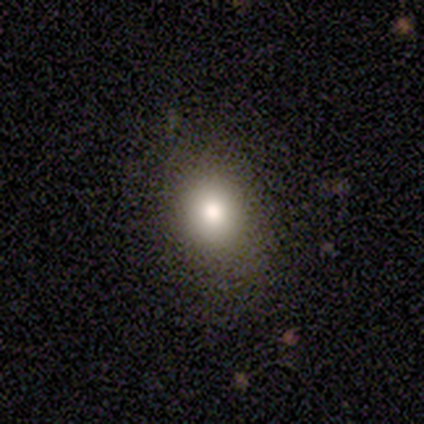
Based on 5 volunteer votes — Volunteers were most divided on "how rounded": in between: 75%, round: 25%, cigar-shaped: 0%. More confident: merging — none (100%); smooth or featured — smooth (80%).